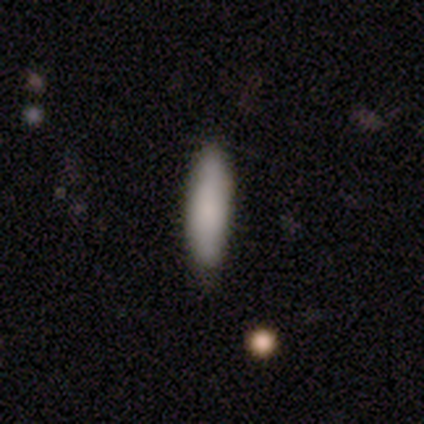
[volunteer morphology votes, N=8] type=smooth (88%); roundness=cigar-shaped (57%); merging=none (75%).